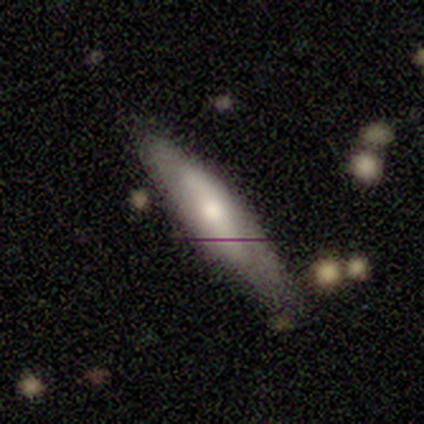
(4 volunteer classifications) Morphology: type=featured or disk (100%); edge-on=no (75%); bar=weak (67%); spiral arms=yes (100%); winding=loose (67%); arm count=2 (100%); bulge=large (33%, tied with moderate and small); merging=none (75%).